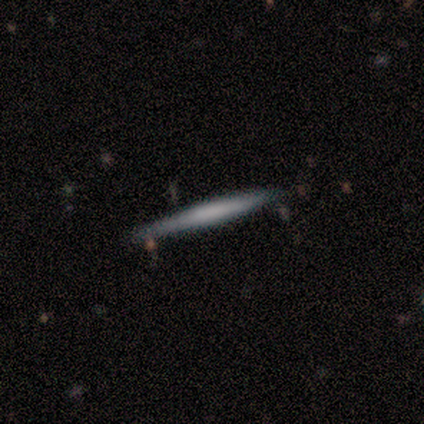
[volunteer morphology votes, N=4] Smooth or featured: smooth — 50% (featured or disk — 25%)
How rounded: cigar-shaped — 100%
Merging: none — 67% (major disturbance — 33%)